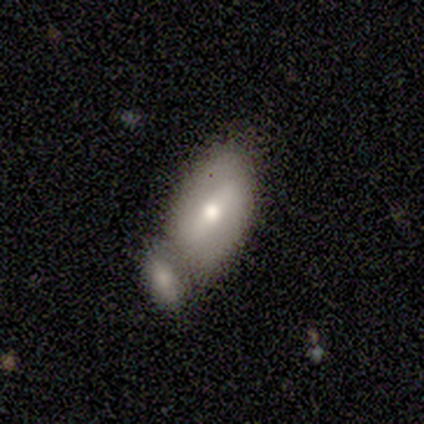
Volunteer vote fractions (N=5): Smooth or featured? 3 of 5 (60%) said smooth. How rounded? 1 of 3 (33%, tied with in between and cigar-shaped) said round. Merging? 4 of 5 (80%) said merger.